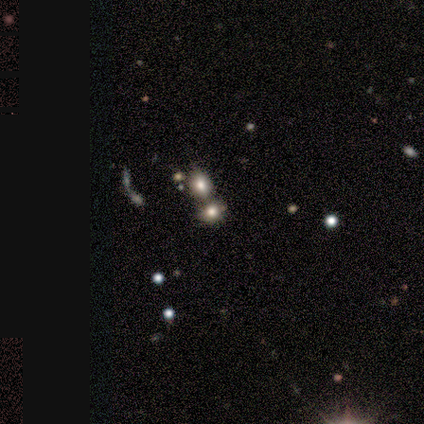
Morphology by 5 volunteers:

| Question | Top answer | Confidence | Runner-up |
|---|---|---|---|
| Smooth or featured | smooth | 60% | featured or disk (20%) |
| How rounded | round | 100% | — |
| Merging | merger | 75% | none (25%) |